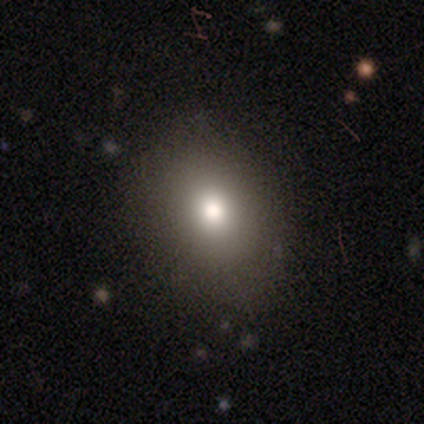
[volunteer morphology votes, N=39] type=smooth (79%); roundness=in between (68%); merging=none (82%).